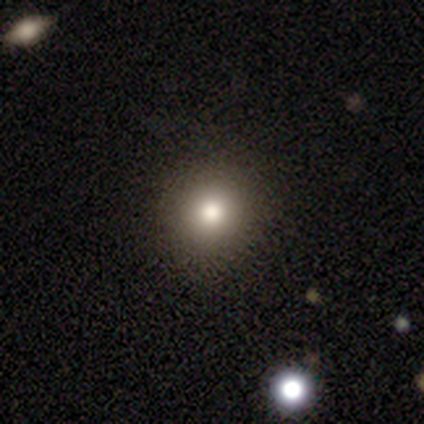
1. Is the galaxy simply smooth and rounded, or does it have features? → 100% smooth, 0% featured or disk, 0% star or artifact.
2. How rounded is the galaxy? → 100% round, 0% in between, 0% cigar-shaped.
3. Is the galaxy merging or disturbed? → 100% none, 0% minor disturbance, 0% major disturbance, 0% merger.